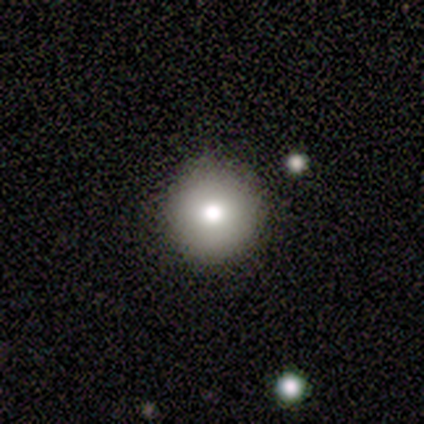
A smooth galaxy with no disk features (80%) that is round (100%).

Vote fractions:
- Smooth or featured? smooth: 80% / star or artifact: 20% / featured or disk: 0%
- How rounded? round: 100% / in between: 0% / cigar-shaped: 0%
- Merging? none: 75% / minor disturbance: 25% / major disturbance: 0% / merger: 0%